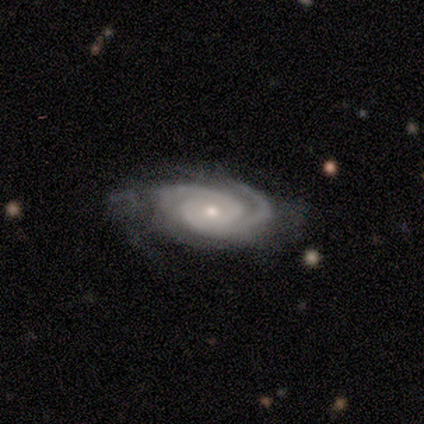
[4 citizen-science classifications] Smooth or featured: featured or disk — 75% (smooth — 25%)
Edge-on disk: no — 100%
Bar: no — 67% (strong — 33%)
Spiral arms: yes — 100%
Spiral winding: tight — 100%
Spiral arm count: 2 — 67% (3 — 33%)
Bulge size: small — 100%
Merging: none — 75% (major disturbance — 25%)